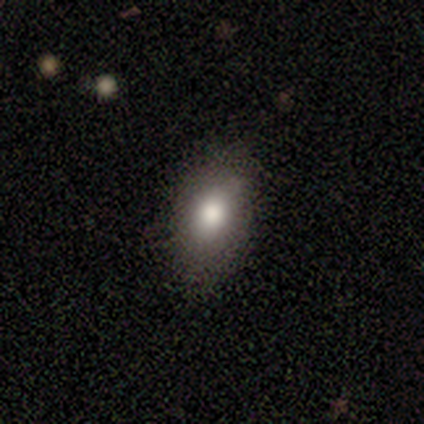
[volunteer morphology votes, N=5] smooth_or_featured: smooth (p=0.80) [alt: featured or disk p=0.20]
how_rounded: in between (p=1.00)
merging: none (p=0.80) [alt: minor disturbance p=0.20]